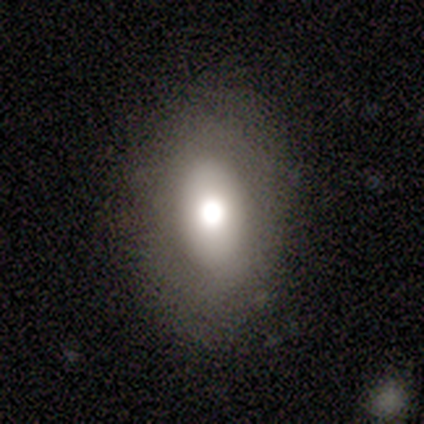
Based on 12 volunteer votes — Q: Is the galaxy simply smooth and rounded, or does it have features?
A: smooth — 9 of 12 (75%).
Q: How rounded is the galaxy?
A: in between — 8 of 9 (89%).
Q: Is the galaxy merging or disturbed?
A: none — 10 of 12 (83%).